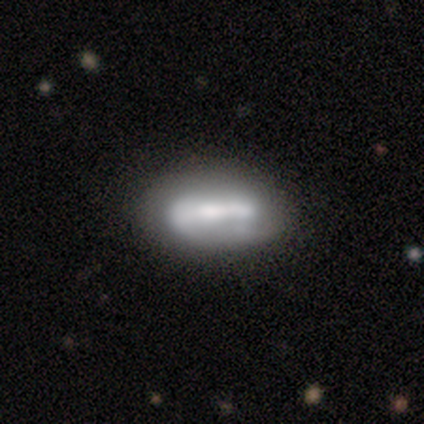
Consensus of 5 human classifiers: Smooth or featured? 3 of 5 (60%) said featured or disk. Edge-on disk? 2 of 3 (67%) said no. Bar? 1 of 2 (50%, tied with no) said strong. Spiral arms? 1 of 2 (50%, tied with no) said yes. Spiral winding? 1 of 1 (100%) said loose. Spiral arm count? 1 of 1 (100%) said 2. Bulge size? 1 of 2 (50%, tied with none) said moderate. Merging? 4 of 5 (80%) said none.